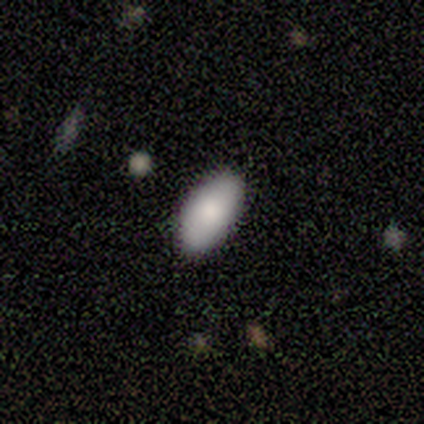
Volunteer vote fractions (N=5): Smooth or featured? 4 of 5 (80%) said smooth. How rounded? 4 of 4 (100%) said in between. Merging? 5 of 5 (100%) said none.